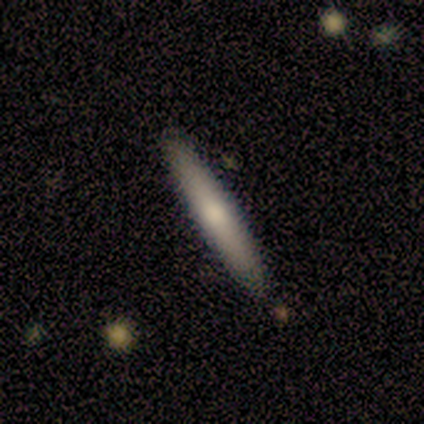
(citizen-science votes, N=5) smooth 60%, featured or disk 40%, star or artifact 0%. Down the decision tree: how rounded — cigar-shaped (100%); merging — none (100%).